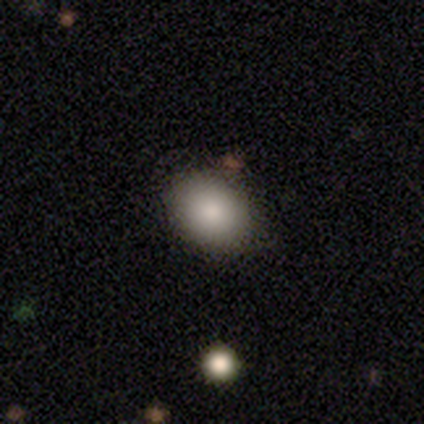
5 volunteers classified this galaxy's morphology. This appears to be a smooth galaxy with no disk features (100%) that is in between round and cigar-shaped (80%). Merging: none (80%).